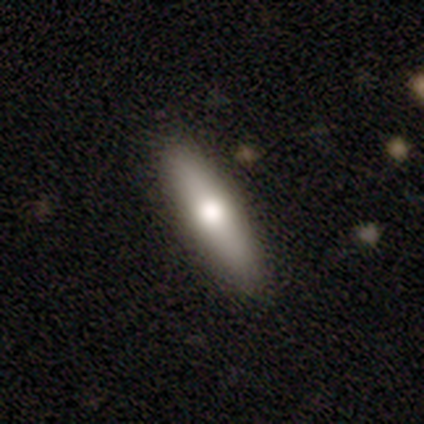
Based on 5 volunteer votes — smooth_or_featured: smooth (p=0.80) [alt: featured or disk p=0.20]
how_rounded: cigar-shaped (p=0.75) [alt: in between p=0.25]
merging: none (p=0.60) [alt: merger p=0.40]